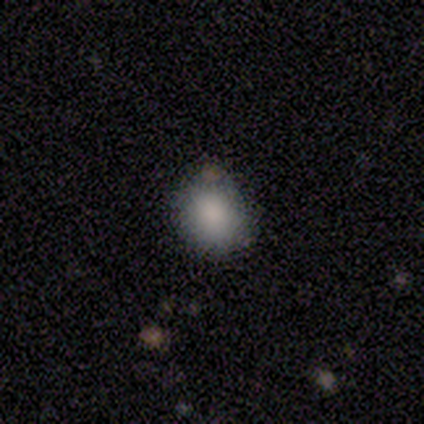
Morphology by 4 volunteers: Q: Smooth or featured?
A: smooth (100%)
Q: How rounded?
A: round (75%); runner-up: in between (25%)
Q: Merging?
A: none (75%); runner-up: minor disturbance (25%)